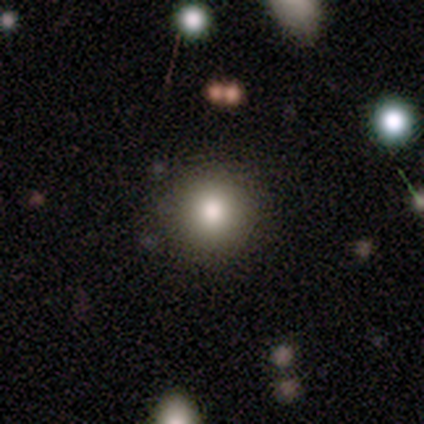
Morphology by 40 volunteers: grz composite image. It shows a smooth galaxy with no disk features (82%) that is round (94%). Merging: none (89%).